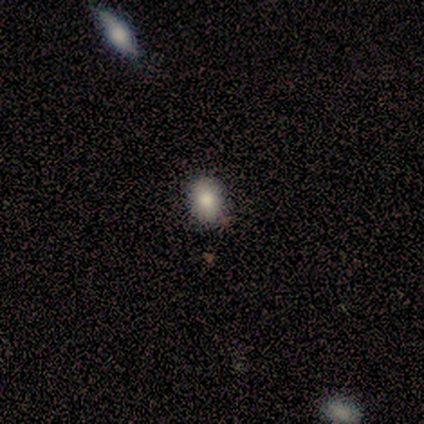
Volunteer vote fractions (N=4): Volunteers were most divided on "how rounded" (2-way tie): round: 50%, in between: 50%, cigar-shaped: 0%. More confident: smooth or featured — smooth (100%); merging — none (75%).